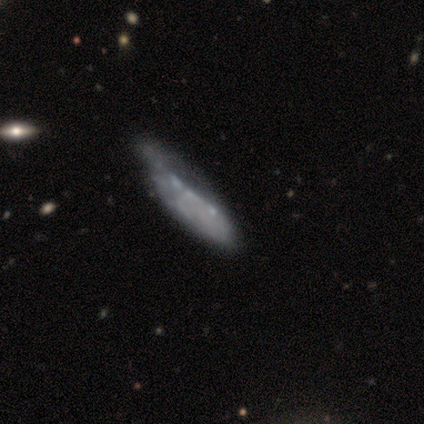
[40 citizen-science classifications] A featured or disk galaxy (70%) with no bar (88%), no spiral arms (92%) and no central bulge (88%).

Vote fractions:
- Smooth or featured? featured or disk: 70% / smooth: 28% / star or artifact: 2%
- Edge-on disk? no: 86% / yes: 14%
- Bar? no: 88% / strong: 12% / weak: 0%
- Spiral arms? no: 92% / yes: 8%
- Bulge size? none: 88% / small: 12% / dominant: 0% / large: 0% / moderate: 0%
- Merging? minor disturbance: 38% / major disturbance: 21% / none: 13% / merger: 5%